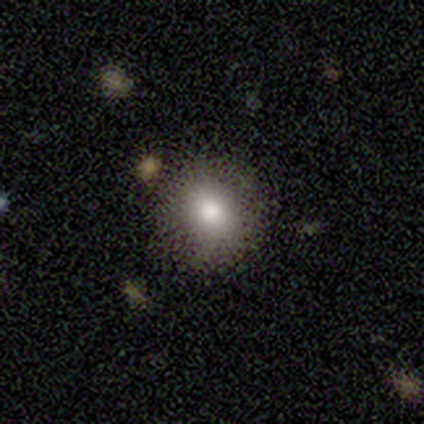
smooth_or_featured: smooth (p=0.75) [alt: featured or disk p=0.12]
how_rounded: round (p=0.83) [alt: in between p=0.17]
merging: none (p=0.86) [alt: minor disturbance p=0.14]